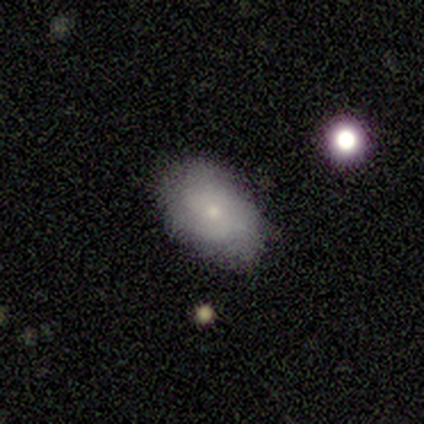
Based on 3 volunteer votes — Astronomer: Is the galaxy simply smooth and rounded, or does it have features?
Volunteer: smooth — 67%.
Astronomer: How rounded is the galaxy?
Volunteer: round — 50%, tied with in between at 50%.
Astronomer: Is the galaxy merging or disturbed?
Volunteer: none — 100%.